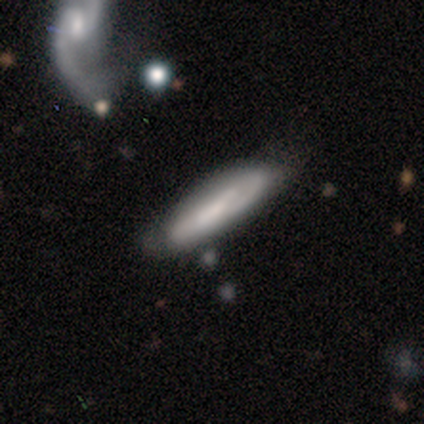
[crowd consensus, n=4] smooth-or-featured: smooth: 100% | featured or disk: 0% | star or artifact: 0%
  how-rounded: cigar-shaped: 75% | in between: 25% | round: 0%
  merging: none: 50% | minor disturbance: 25% | major disturbance: 25% | merger: 0%